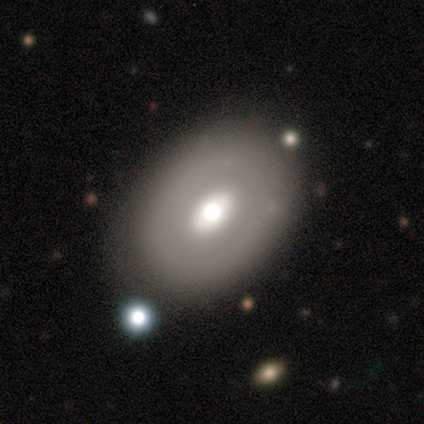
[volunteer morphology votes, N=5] A smooth galaxy with no disk features (60%) that is in between round and cigar-shaped (67%).

Vote fractions:
- Smooth or featured? smooth: 60% / featured or disk: 20% / star or artifact: 20%
- How rounded? in between: 67% / round: 33% / cigar-shaped: 0%
- Merging? none: 100% / minor disturbance: 0% / major disturbance: 0% / merger: 0%